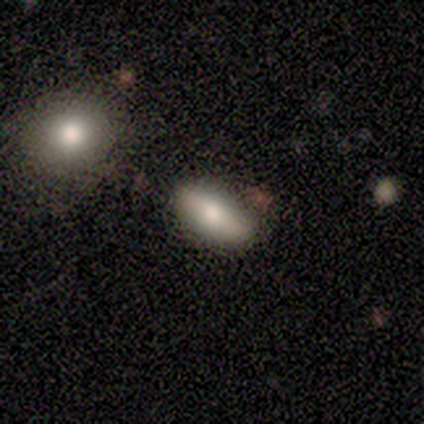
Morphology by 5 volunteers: A smooth galaxy with no disk features (60%) that is in between round and cigar-shaped (100%).

Vote fractions:
- Smooth or featured? smooth: 60% / featured or disk: 40% / star or artifact: 0%
- How rounded? in between: 100% / round: 0% / cigar-shaped: 0%
- Merging? none: 80% / minor disturbance: 20% / major disturbance: 0% / merger: 0%